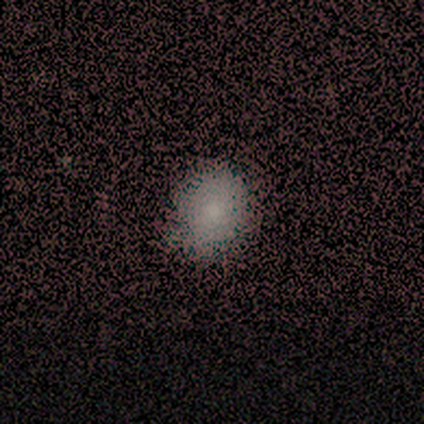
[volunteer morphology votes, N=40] smooth_or_featured: smooth (p=0.78) [alt: featured or disk p=0.12]
how_rounded: round (p=0.65) [alt: in between p=0.35]
merging: none (p=0.64) [alt: minor disturbance p=0.03]